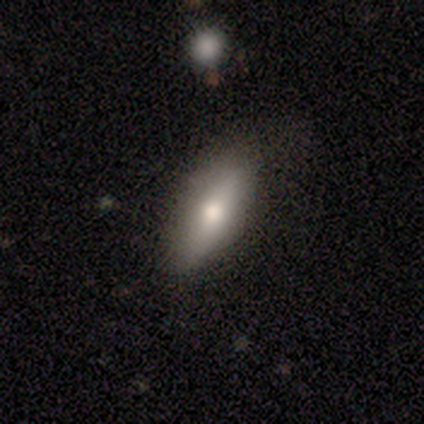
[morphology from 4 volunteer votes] smooth-or-featured: smooth: 50% (tied) | featured or disk: 50% (tied) | star or artifact: 0%
  how-rounded: in between: 50% (tied) | cigar-shaped: 50% (tied) | round: 0%
  merging: none: 75% | minor disturbance: 25% | major disturbance: 0% | merger: 0%